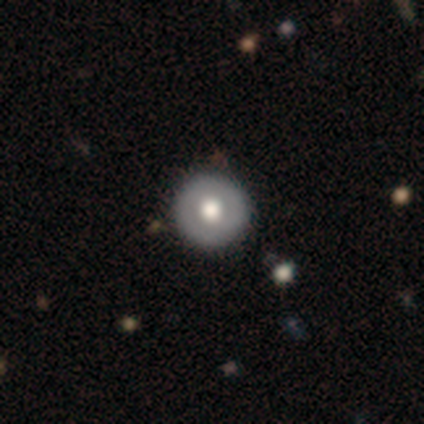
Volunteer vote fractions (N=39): Morphology: type=smooth (67%); roundness=round (92%); merging=none (94%).